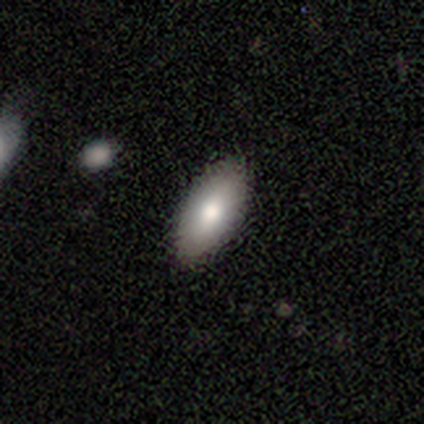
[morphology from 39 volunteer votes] Q: Smooth or featured?
A: smooth (85%); runner-up: featured or disk (13%)
Q: How rounded?
A: in between (91%); runner-up: cigar-shaped (9%)
Q: Merging?
A: none (82%); runner-up: minor disturbance (13%)